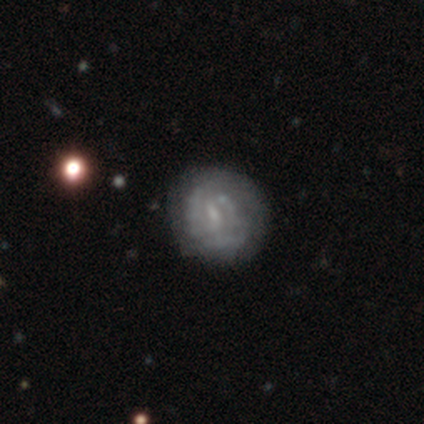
Smooth or featured? 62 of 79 (78%) said featured or disk. Edge-on disk? 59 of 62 (95%) said no. Bar? 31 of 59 (53%) said weak. Spiral arms? 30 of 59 (51%) said yes. Spiral winding? 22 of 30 (73%) said tight. Spiral arm count? 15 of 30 (50%) said can't tell. Bulge size? 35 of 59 (59%) said small. Merging? 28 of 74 (38%) said none.